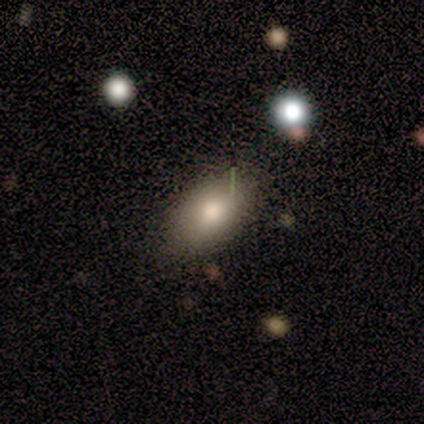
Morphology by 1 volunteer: This appears to be a smooth galaxy with no disk features (100%) that is in between round and cigar-shaped (100%). Merging: none (100%).